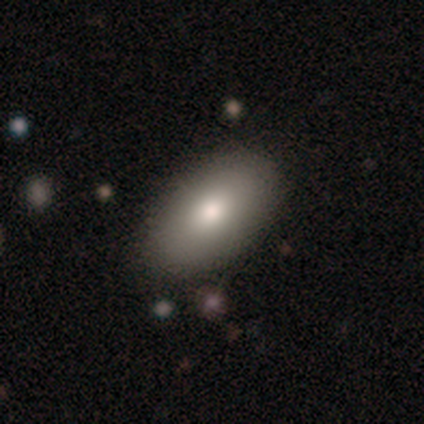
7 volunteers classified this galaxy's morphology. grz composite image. It shows a smooth galaxy with no disk features (71%) that is in between round and cigar-shaped (80%). Merging: none (100%).